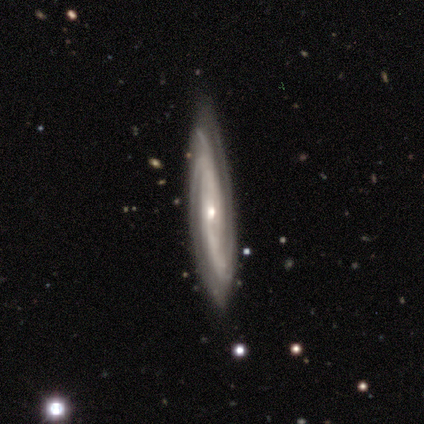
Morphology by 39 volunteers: Overall: featured or disk (92%). Edge-on disk: no (75%). Bar: no (63%; weak 26%). Spiral arms: yes (93%). Spiral arm count: 2 (40%; can't tell 24%). Spiral winding: tight (60%; medium 32%). Bulge size: small (74%). Merging: none (77%).